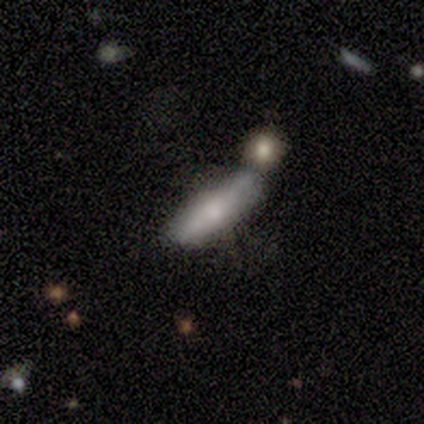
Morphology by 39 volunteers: Smooth or featured: smooth — 62% (featured or disk — 36%)
How rounded: cigar-shaped — 71% (in between — 29%)
Merging: merger — 45% (none — 39%)